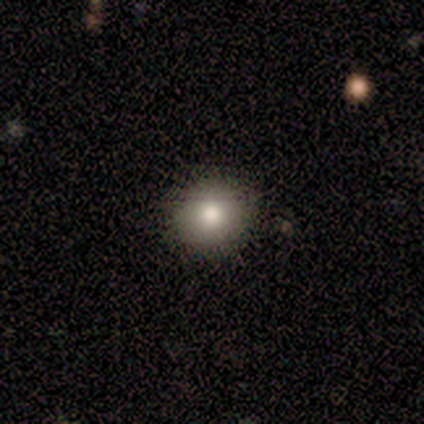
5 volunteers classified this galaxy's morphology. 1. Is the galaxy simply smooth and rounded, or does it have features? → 80% smooth, 20% star or artifact, 0% featured or disk.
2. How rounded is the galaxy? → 100% round, 0% in between, 0% cigar-shaped.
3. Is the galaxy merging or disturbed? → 75% none, 25% minor disturbance, 0% major disturbance, 0% merger.